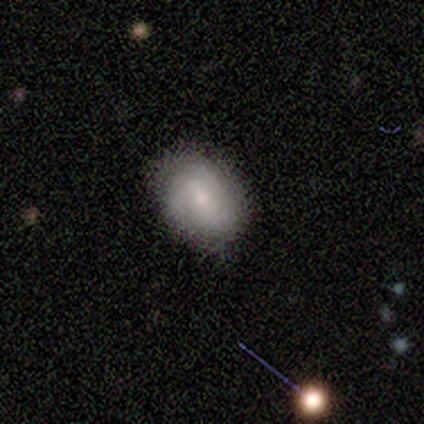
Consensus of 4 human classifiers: Morphology: type=smooth (75%); roundness=in between (100%); merging=none (75%).